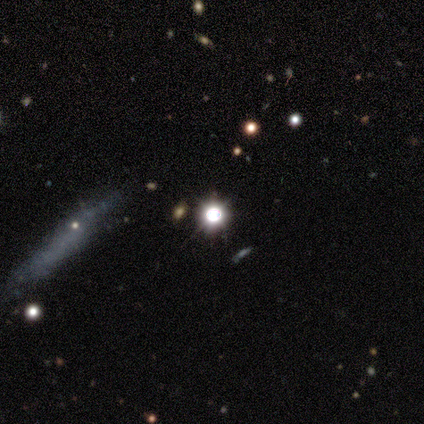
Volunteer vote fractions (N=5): This appears to be a star or artifact, not a galaxy (100%).